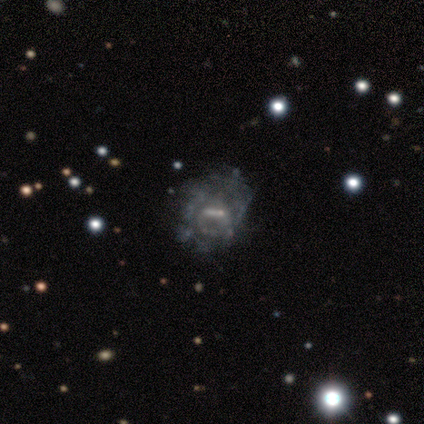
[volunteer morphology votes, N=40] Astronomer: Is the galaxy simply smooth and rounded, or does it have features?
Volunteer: featured or disk — 75%.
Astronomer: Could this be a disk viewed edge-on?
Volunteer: no — 100%.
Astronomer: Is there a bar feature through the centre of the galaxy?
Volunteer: strong — 47% (runner-up: no, 30%).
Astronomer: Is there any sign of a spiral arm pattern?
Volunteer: yes — 53% (runner-up: no, 47%).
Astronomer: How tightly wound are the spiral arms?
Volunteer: tight — 50%.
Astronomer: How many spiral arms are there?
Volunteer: can't tell — 56%.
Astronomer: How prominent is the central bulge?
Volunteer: small — 40% (runner-up: none, 27%).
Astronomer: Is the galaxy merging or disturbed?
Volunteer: none — 63%.